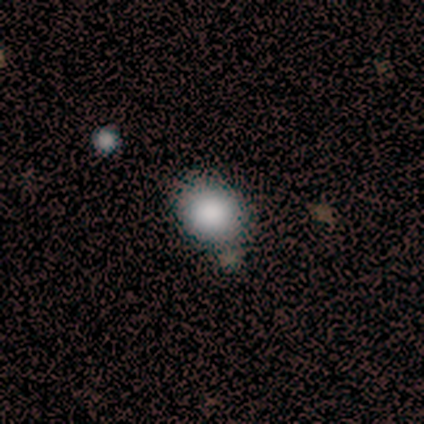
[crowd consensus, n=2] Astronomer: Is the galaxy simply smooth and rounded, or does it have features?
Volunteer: smooth — 100%.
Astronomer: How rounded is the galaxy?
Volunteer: round — 100%.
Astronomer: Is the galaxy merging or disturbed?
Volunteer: none — 100%.